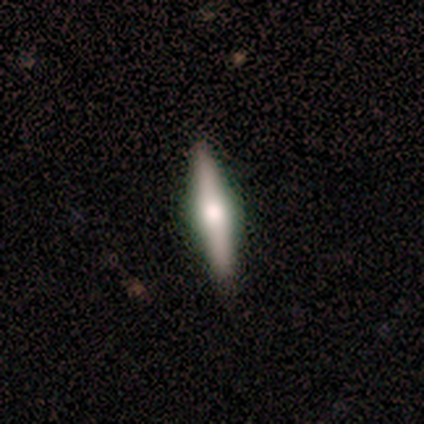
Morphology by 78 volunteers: Smooth or featured? 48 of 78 (62%) said featured or disk. Edge-on disk? 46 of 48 (96%) said yes. Edge-on bulge? 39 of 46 (85%) said rounded. Merging? 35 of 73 (48%) said none.